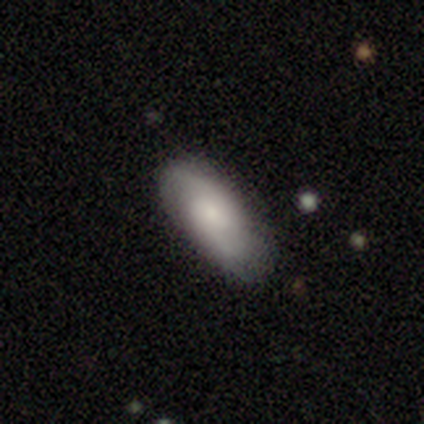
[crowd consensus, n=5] smooth_or_featured: featured or disk (p=0.80) [alt: star or artifact p=0.20]
disk_edge_on: no (p=1.00)
bar: no (p=0.50) [alt: strong p=0.25]
has_spiral_arms: yes (p=1.00)
spiral_winding: tight (p=0.50) [tied with: medium p=0.50]
spiral_arm_count: 2 (p=1.00)
bulge_size: moderate (p=0.50) [alt: small p=0.25]
merging: none (p=1.00)